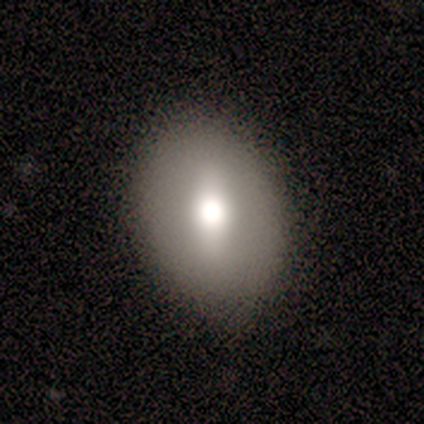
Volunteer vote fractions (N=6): A smooth galaxy with no disk features (67%) that is in between round and cigar-shaped (75%).

Vote fractions:
- Smooth or featured? smooth: 67% / featured or disk: 17% / star or artifact: 17%
- How rounded? in between: 75% / round: 25% / cigar-shaped: 0%
- Merging? none: 100% / minor disturbance: 0% / major disturbance: 0% / merger: 0%